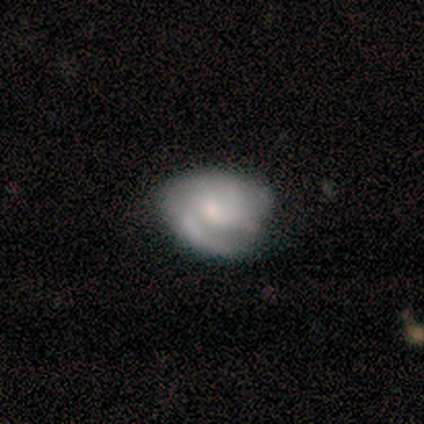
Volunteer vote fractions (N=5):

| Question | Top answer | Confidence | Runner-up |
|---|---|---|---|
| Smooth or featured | smooth | 60% | featured or disk (40%) |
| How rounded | round | 67% | in between (33%) |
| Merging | minor disturbance | 100% | — |